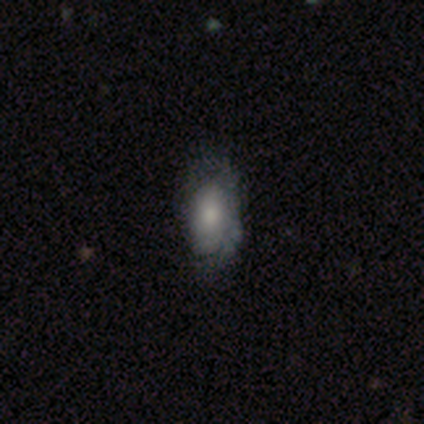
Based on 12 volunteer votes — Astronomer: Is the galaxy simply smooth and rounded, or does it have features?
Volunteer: smooth — 67%.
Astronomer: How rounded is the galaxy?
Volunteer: in between — 88%.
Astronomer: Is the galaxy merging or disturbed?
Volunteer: none — 64%.